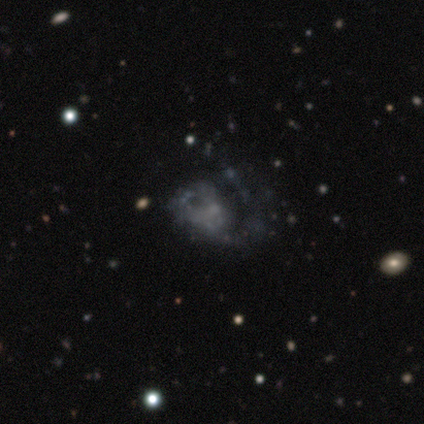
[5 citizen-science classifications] This is clearly a featured or disk galaxy (100%). It is clearly not viewed edge-on (80%). Bar: clearly no (100%). Spiral arm pattern: likely yes (75%). Spiral arm count: likely can't tell (67%). Spiral winding: likely medium (67%). Central bulge: possibly small (50%, tied with none). Merging: clearly major disturbance (100%).